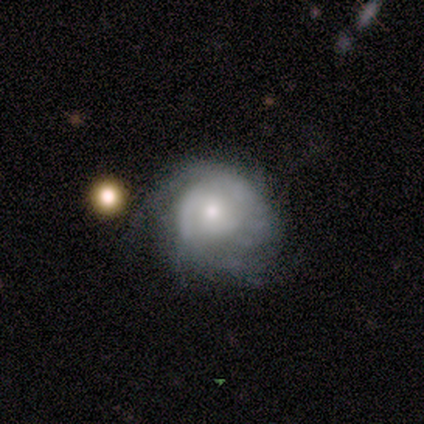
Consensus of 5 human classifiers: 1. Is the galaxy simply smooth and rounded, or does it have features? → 80% featured or disk, 20% star or artifact, 0% smooth.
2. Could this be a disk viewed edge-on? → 75% no, 25% yes.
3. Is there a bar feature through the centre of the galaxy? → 100% no, 0% strong, 0% weak.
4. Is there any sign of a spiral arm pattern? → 67% yes, 33% no.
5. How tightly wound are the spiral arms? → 100% tight, 0% medium, 0% loose.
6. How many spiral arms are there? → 50% 2 (tied), 50% can't tell (tied), 0% 1, 0% 3, 0% 4, 0% more than 4.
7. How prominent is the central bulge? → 33% large (tied), 33% moderate (tied), 33% small (tied), 0% dominant, 0% none.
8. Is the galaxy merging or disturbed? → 50% minor disturbance, 25% none, 25% major disturbance, 0% merger.